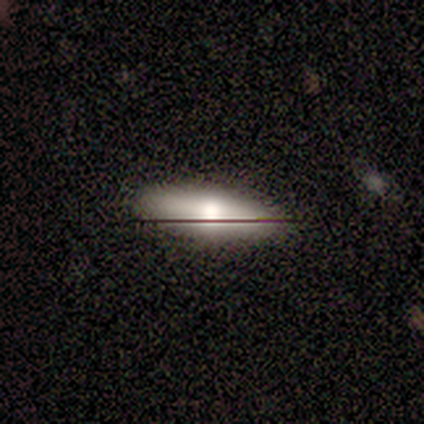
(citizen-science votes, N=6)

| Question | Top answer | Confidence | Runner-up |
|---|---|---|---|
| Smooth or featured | smooth | 83% | featured or disk (17%) |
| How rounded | cigar-shaped | 60% | in between (40%) |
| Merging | none | 83% | minor disturbance (17%) |